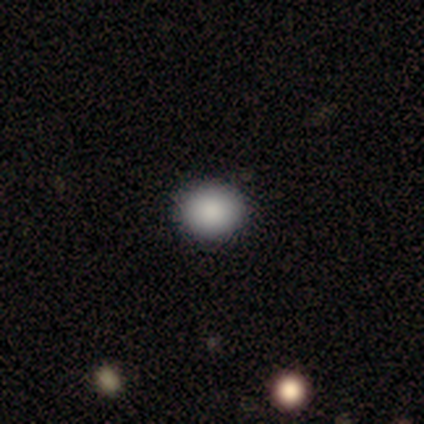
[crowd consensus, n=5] Smooth or featured?
  - smooth: 80% *
  - featured or disk: 20%
  - star or artifact: 0%
How rounded?
  - round: 75% *
  - in between: 25%
  - cigar-shaped: 0%
Merging?
  - none: 100% *
  - minor disturbance: 0%
  - major disturbance: 0%
  - merger: 0%